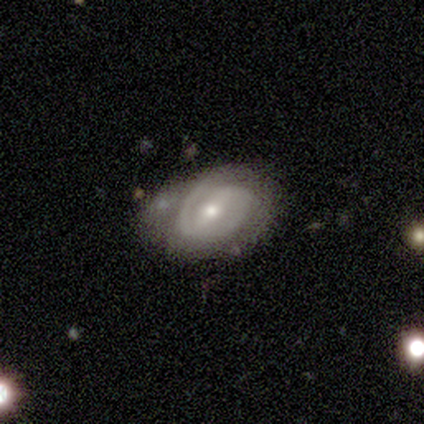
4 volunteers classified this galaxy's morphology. Smooth or featured: featured or disk — 75% (smooth — 25%)
Edge-on disk: no — 100%
Bar: strong — 67% (weak — 33%)
Spiral arms: yes — 100%
Spiral winding: tight — 67% (medium — 33%)
Spiral arm count: 2 — 100%
Bulge size: moderate — 67% (small — 33%)
Merging: none — 75% (minor disturbance — 25%)